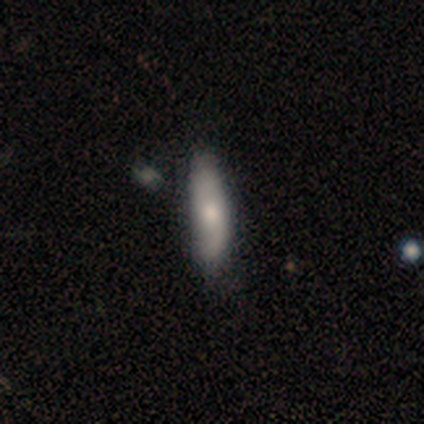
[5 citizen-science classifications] smooth 60%, featured or disk 40%, star or artifact 0%. Down the decision tree: how rounded — in between (67%); merging — none (60%).